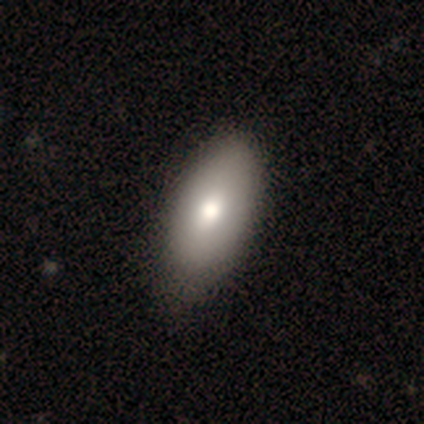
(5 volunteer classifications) Morphology: type=smooth (100%); roundness=in between (80%); merging=none (80%).